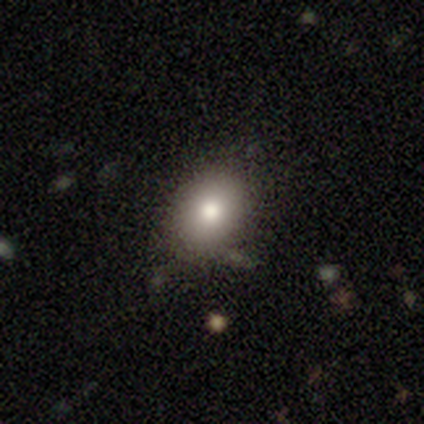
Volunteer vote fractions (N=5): Smooth or featured? 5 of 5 (100%) said smooth. How rounded? 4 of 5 (80%) said in between. Merging? 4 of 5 (80%) said none.